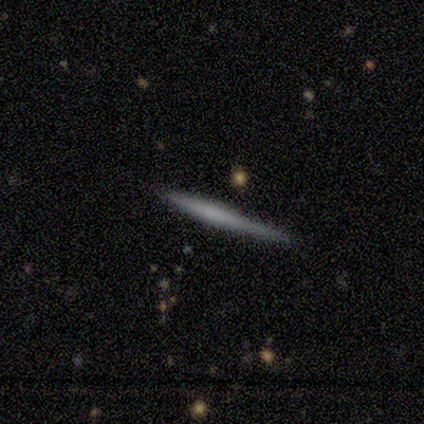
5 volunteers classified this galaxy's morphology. type=smooth (40%, tied with featured or disk); roundness=cigar-shaped (100%); merging=none (100%).